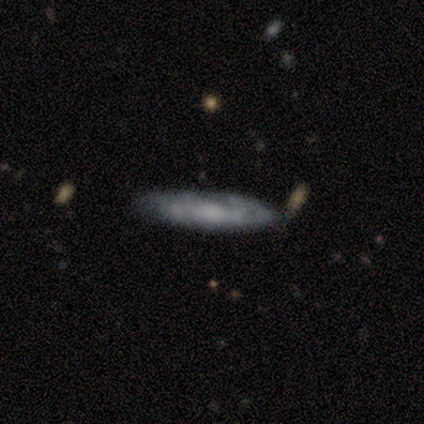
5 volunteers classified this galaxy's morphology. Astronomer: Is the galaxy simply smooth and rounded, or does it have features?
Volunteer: featured or disk — 80%.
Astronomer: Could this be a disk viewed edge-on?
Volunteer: no — 100%.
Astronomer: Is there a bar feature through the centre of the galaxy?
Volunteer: weak — 50%, tied with no at 50%.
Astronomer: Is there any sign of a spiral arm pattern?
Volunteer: yes — 75%.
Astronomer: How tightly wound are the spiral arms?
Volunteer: tight — 67%.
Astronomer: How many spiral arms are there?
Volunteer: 2 — 67%.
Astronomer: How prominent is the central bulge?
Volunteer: moderate — 75%.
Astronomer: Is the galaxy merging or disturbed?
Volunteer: none — 80%.